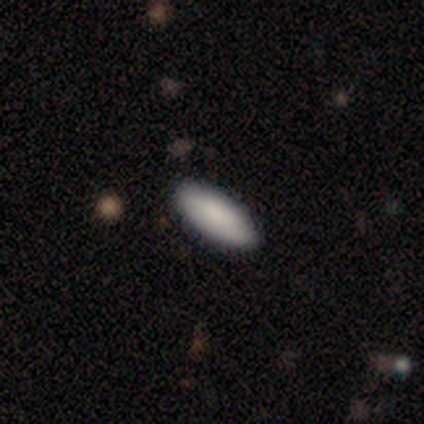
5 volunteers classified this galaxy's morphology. Overall: smooth (80%). How rounded: in between (100%). Merging: none (100%).